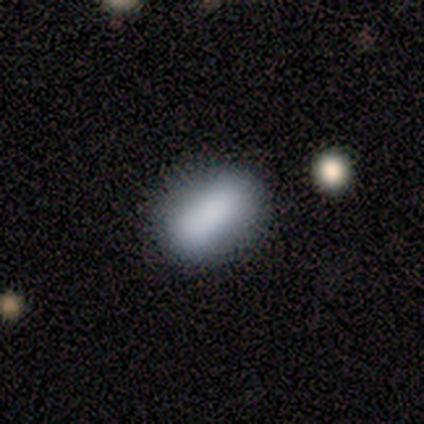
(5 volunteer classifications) This appears to be a smooth galaxy with no disk features (80%) that is in between round and cigar-shaped (75%). Merging: none (80%).